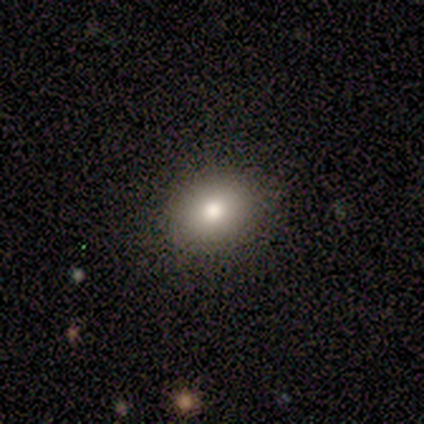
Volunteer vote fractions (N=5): This appears to be a smooth galaxy with no disk features (100%) that is in between round and cigar-shaped (80%). Merging: none (80%).